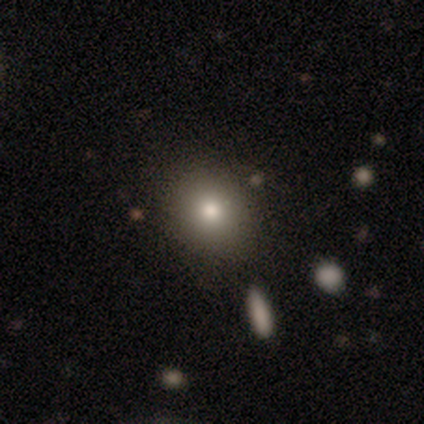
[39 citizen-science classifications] Smooth or featured?
  - smooth: 82% *
  - featured or disk: 13%
  - star or artifact: 5%
How rounded?
  - round: 59% *
  - in between: 41%
  - cigar-shaped: 0%
Merging?
  - none: 84% *
  - minor disturbance: 11%
  - major disturbance: 5%
  - merger: 0%